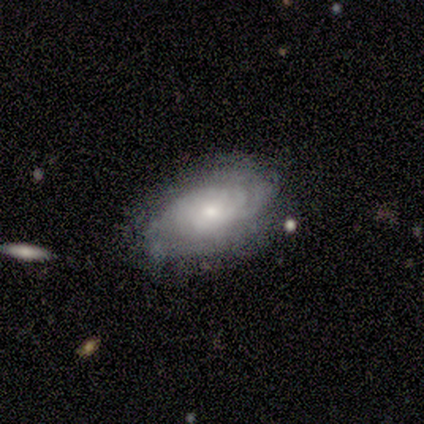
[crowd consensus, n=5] Smooth or featured?
  - featured or disk: 60% *
  - smooth: 40%
  - star or artifact: 0%
Edge-on disk?
  - no: 100% *
  - yes: 0%
Bar?
  - no: 100% *
  - strong: 0%
  - weak: 0%
Spiral arms?
  - no: 67% *
  - yes: 33%
Bulge size?
  - moderate: 67% *
  - small: 33%
  - dominant: 0%
  - large: 0%
  - none: 0%
Merging?
  - none: 100% *
  - minor disturbance: 0%
  - major disturbance: 0%
  - merger: 0%